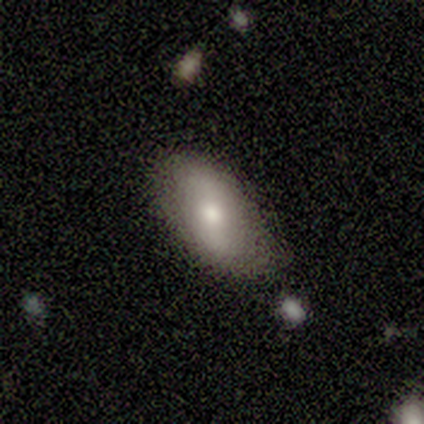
Q: Smooth or featured?
A: featured or disk (100%)
Q: Edge-on disk?
A: no (75%); runner-up: yes (25%)
Q: Bar?
A: no (67%); runner-up: strong (33%)
Q: Spiral arms?
A: no (100%)
Q: Bulge size?
A: dominant (33%); tied with: large (33%); small (33%)
Q: Merging?
A: none (50%); tied with: minor disturbance (50%)